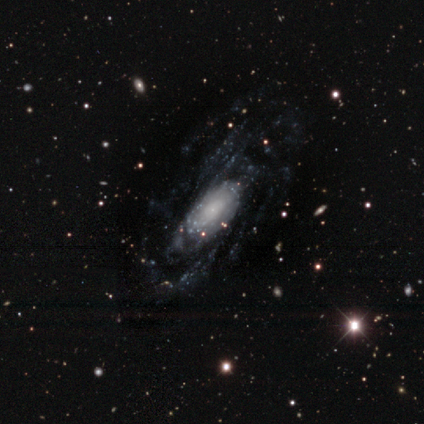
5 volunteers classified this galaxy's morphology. smooth-or-featured: featured or disk: 80% | smooth: 20% | star or artifact: 0%
  disk-edge-on: no: 75% | yes: 25%
    bar: no: 67% | weak: 33% | strong: 0%
    has-spiral-arms: yes: 100% | no: 0%
      spiral-winding: loose: 67% | tight: 33% | medium: 0%
      spiral-arm-count: can't tell: 100% | 1: 0% | 2: 0% | 3: 0% | 4: 0% | more than 4: 0%
    bulge-size: small: 67% | none: 33% | dominant: 0% | large: 0% | moderate: 0%
  merging: none: 60% | major disturbance: 20% | merger: 20% | minor disturbance: 0%